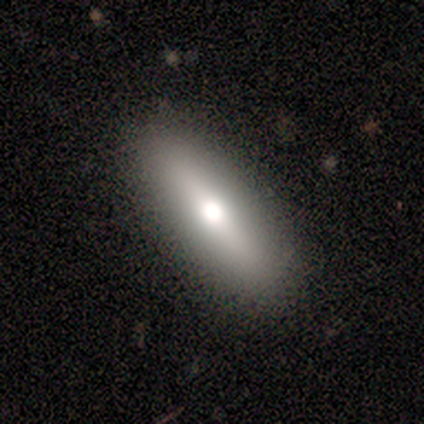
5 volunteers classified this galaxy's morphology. smooth_or_featured: smooth (p=0.60) [alt: featured or disk p=0.40]
how_rounded: in between (p=0.67) [alt: cigar-shaped p=0.33]
merging: none (p=1.00)